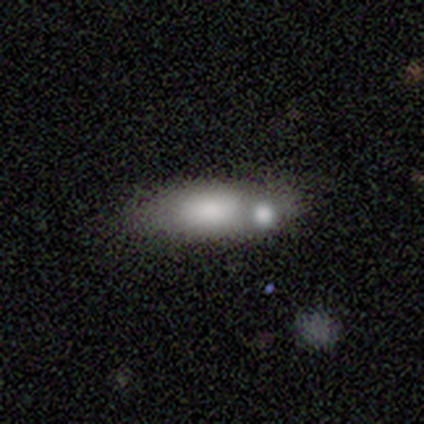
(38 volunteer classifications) smooth 61%, featured or disk 32%, star or artifact 8%. Down the decision tree: how rounded — in between (74%); merging — merger (49%).